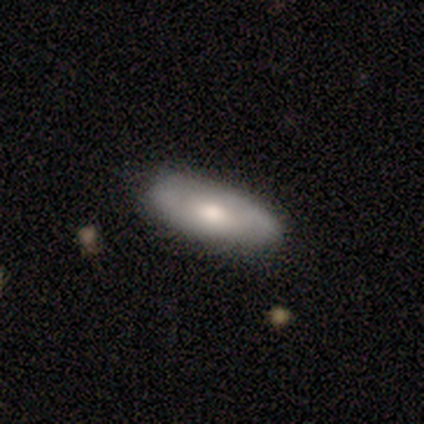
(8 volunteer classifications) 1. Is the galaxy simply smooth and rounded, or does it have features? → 50% featured or disk, 38% smooth, 12% star or artifact.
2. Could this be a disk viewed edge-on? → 100% no, 0% yes.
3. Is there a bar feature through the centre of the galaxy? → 100% no, 0% strong, 0% weak.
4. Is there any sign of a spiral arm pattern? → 50% yes (tied), 50% no (tied).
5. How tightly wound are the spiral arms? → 100% tight, 0% medium, 0% loose.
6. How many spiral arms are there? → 50% 2 (tied), 50% can't tell (tied), 0% 1, 0% 3, 0% 4, 0% more than 4.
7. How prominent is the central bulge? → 75% moderate, 25% small, 0% dominant, 0% large, 0% none.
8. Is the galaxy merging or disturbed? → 100% none, 0% minor disturbance, 0% major disturbance, 0% merger.